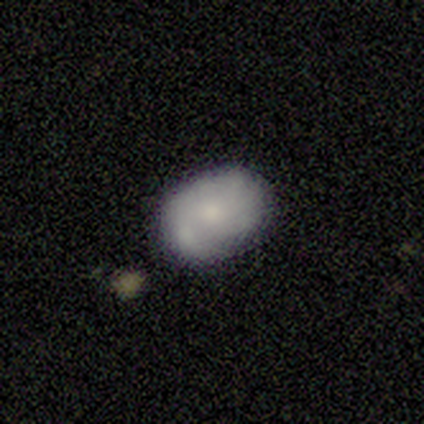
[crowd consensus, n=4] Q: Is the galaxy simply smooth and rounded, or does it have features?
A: smooth — 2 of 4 (50%, tied with featured or disk).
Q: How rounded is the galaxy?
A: round — 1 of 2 (50%, tied with in between).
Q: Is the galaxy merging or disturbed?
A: none — 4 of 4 (100%).